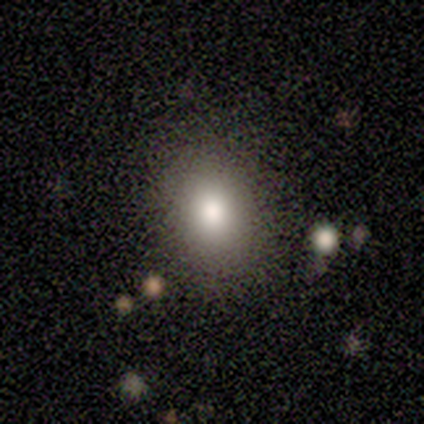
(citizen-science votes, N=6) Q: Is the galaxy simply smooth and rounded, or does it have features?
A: smooth — 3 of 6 (50%).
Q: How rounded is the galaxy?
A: in between — 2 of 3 (67%).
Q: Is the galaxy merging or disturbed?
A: none — 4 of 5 (80%).